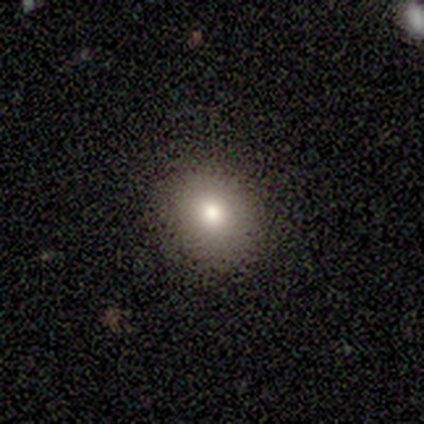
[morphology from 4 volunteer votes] smooth 100%, featured or disk 0%, star or artifact 0%. Down the decision tree: how rounded — round (100%); merging — none (100%).